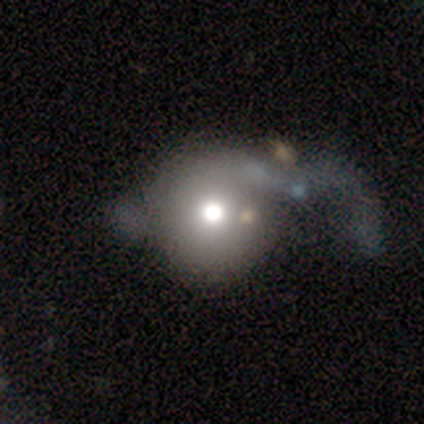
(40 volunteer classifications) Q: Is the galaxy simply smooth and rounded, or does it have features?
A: smooth — 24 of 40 (60%).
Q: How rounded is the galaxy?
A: round — 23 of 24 (96%).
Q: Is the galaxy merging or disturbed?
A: major disturbance — 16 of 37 (43%).